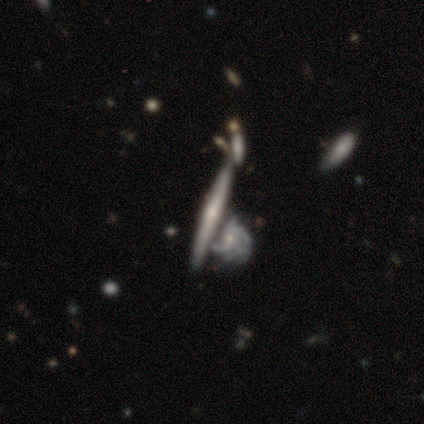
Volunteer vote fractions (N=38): This is likely a featured or disk galaxy (74%). It is clearly viewed edge-on (93%). Edge-on bulge: likely rounded (62%). Merging: possibly merger (46%).